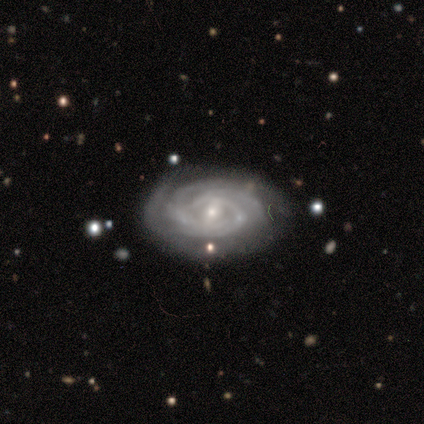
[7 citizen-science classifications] smooth_or_featured: featured or disk (p=1.00)
disk_edge_on: no (p=1.00)
bar: weak (p=0.71) [alt: no p=0.29]
has_spiral_arms: yes (p=1.00)
spiral_winding: medium (p=0.57) [alt: tight p=0.43]
spiral_arm_count: 3 (p=0.43) [alt: 1 p=0.14]
bulge_size: small (p=0.86) [alt: none p=0.14]
merging: none (p=0.86) [alt: minor disturbance p=0.14]